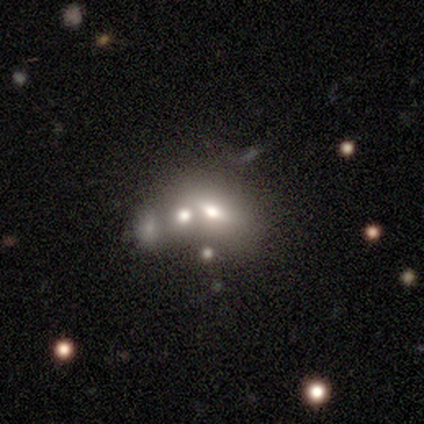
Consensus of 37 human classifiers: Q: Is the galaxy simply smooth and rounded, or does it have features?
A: featured or disk — 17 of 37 (46%).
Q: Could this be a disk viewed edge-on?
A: no — 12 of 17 (71%).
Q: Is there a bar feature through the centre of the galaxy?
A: no — 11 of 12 (92%).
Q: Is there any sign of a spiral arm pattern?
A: no — 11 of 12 (92%).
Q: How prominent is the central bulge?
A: moderate — 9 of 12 (75%).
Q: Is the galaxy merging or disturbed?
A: merger — 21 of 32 (66%).